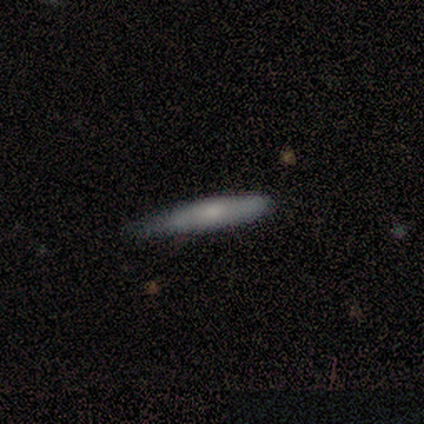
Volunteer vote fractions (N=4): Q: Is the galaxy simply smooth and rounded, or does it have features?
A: smooth — 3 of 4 (75%).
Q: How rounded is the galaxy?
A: cigar-shaped — 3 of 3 (100%).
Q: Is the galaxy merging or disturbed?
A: none — 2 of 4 (50%, tied with minor disturbance).